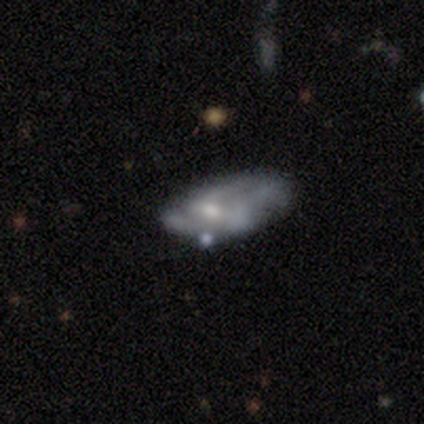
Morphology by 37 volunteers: Smooth or featured? 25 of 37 (68%) said featured or disk. Edge-on disk? 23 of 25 (92%) said no. Bar? 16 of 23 (70%) said no. Spiral arms? 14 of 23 (61%) said no. Bulge size? 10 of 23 (43%) said moderate. Merging? 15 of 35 (43%) said none.